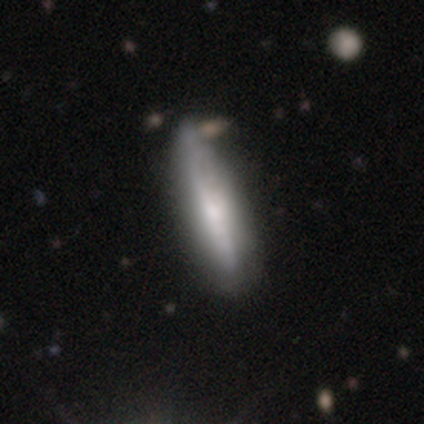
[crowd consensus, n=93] Volunteers were most divided on "smooth or featured" (2-way tie): smooth: 48%, featured or disk: 48%, star or artifact: 3%. More confident: how rounded — cigar-shaped (84%); merging — none (70%).